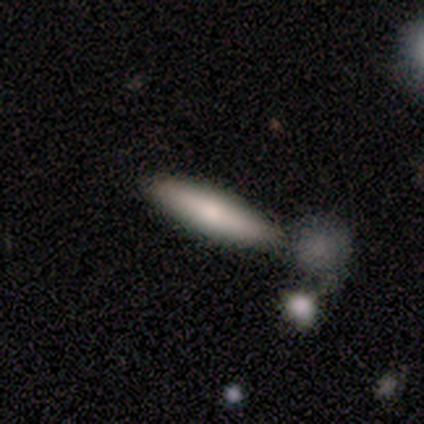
smooth 100%, featured or disk 0%, star or artifact 0%. Down the decision tree: how rounded — cigar-shaped (80%); merging — none (100%).